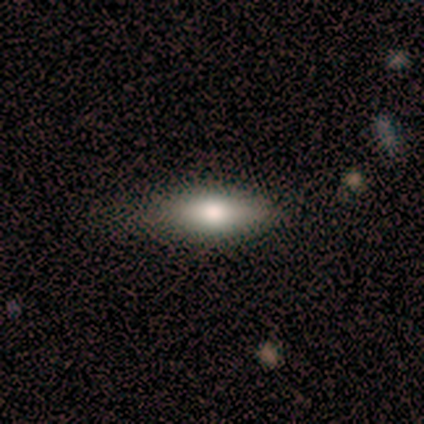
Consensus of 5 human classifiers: Q: Smooth or featured?
A: smooth (60%); runner-up: featured or disk (40%)
Q: How rounded?
A: in between (100%)
Q: Merging?
A: none (60%); runner-up: minor disturbance (40%)